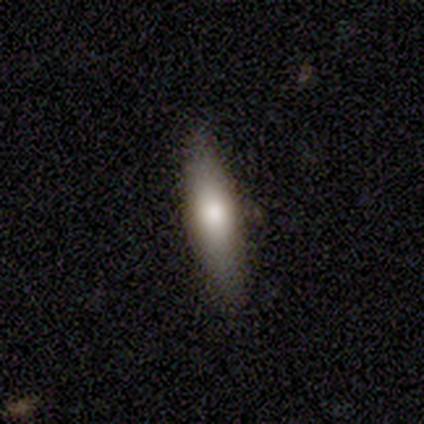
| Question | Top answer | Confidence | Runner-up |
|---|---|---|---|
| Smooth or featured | smooth | 83% | star or artifact (17%) |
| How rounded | cigar-shaped | 80% | in between (20%) |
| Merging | none | 100% | — |